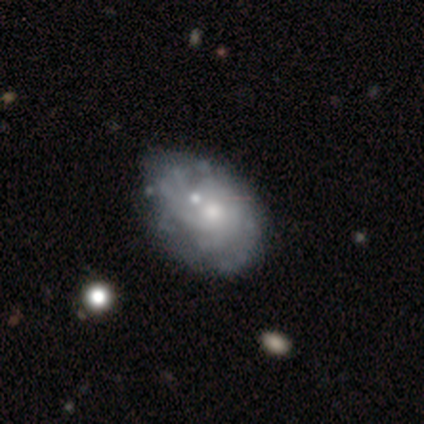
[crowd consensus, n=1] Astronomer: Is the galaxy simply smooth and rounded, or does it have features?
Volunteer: featured or disk — 100%.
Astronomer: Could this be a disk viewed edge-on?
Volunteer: no — 100%.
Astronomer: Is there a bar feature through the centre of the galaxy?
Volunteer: no — 100%.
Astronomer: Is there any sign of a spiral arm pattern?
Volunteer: no — 100%.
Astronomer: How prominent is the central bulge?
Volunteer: moderate — 100%.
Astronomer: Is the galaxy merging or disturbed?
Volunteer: major disturbance — 100%.